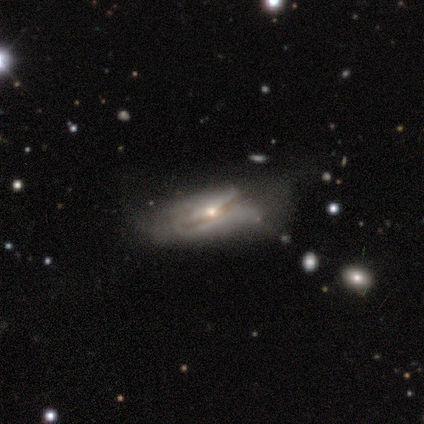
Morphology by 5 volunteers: Volunteers were most divided on "merging" (2-way tie): minor disturbance: 40%, major disturbance: 40%, none: 20%, merger: 0%. More confident: smooth or featured — featured or disk (80%); edge-on disk — yes (75%); edge-on bulge — rounded (67%).